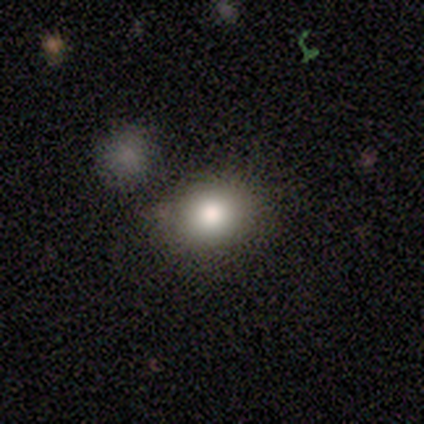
smooth_or_featured: smooth (p=1.00)
how_rounded: in between (p=0.83) [alt: round p=0.17]
merging: none (p=1.00)